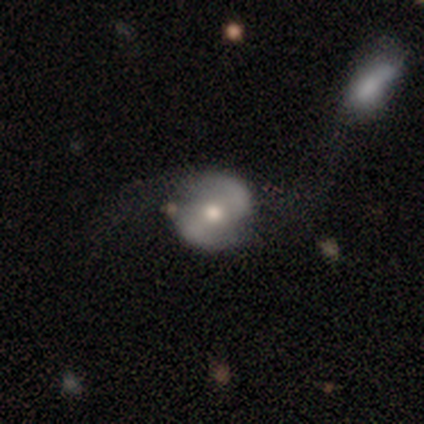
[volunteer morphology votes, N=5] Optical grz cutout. It shows a featured or disk galaxy (60%) with a weak bar (67%), 2 (100%) tight (50%, tied with medium) spiral arms (67%) and a small central bulge (67%). Merging: none (80%).